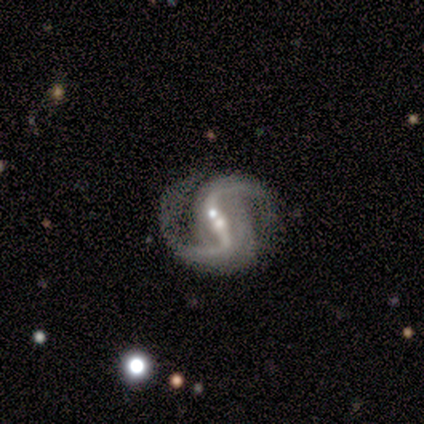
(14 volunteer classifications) smooth_or_featured: featured or disk (p=1.00)
disk_edge_on: no (p=1.00)
bar: strong (p=0.57) [alt: no p=0.29]
has_spiral_arms: yes (p=1.00)
spiral_winding: loose (p=0.71) [alt: medium p=0.21]
spiral_arm_count: 2 (p=1.00)
bulge_size: small (p=0.71) [alt: moderate p=0.29]
merging: none (p=0.50) [alt: merger p=0.29]